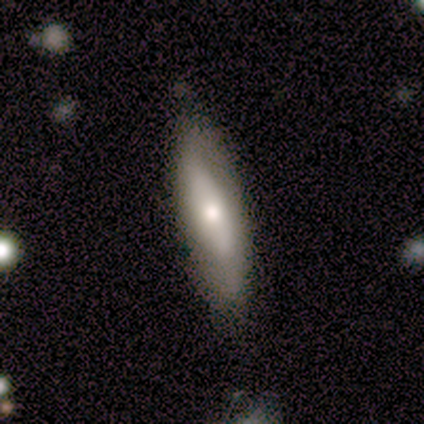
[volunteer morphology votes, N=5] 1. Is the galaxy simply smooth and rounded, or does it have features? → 60% featured or disk, 40% smooth, 0% star or artifact.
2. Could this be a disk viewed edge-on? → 67% yes, 33% no.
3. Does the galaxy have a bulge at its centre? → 100% rounded, 0% boxy, 0% none.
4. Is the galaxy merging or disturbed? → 60% none, 40% minor disturbance, 0% major disturbance, 0% merger.